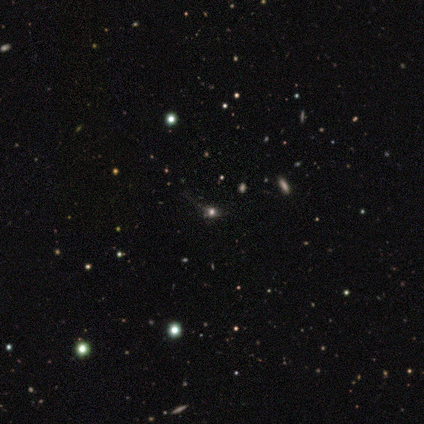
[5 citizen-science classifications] Smooth or featured? smooth (40%, tied with star or artifact)
How rounded? round (100%)
Merging? none (67%)